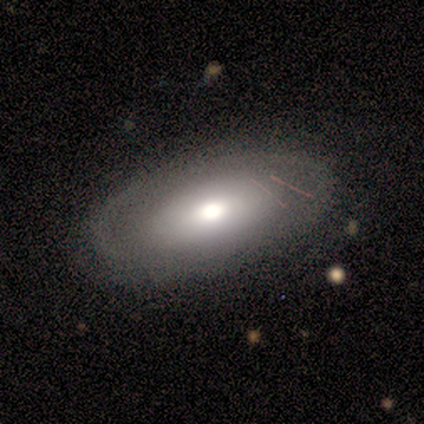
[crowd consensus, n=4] Smooth or featured? featured or disk (75%)
Edge-on disk? no (100%)
Bar? no (100%)
Spiral arms? no (100%)
Bulge size? moderate (100%)
Merging? none (75%)